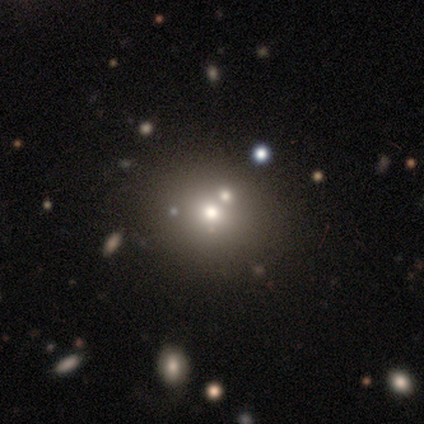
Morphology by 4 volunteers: type=smooth (75%); roundness=round (67%); merging=none (75%).